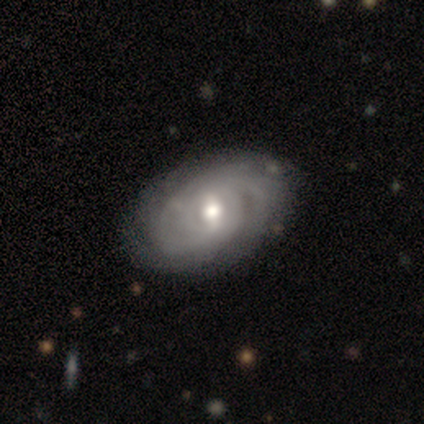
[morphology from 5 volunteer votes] smooth-or-featured: featured or disk: 100% | smooth: 0% | star or artifact: 0%
  disk-edge-on: no: 100% | yes: 0%
    bar: weak: 60% | strong: 20% | no: 20%
    has-spiral-arms: yes: 80% | no: 20%
      spiral-winding: tight: 100% | medium: 0% | loose: 0%
      spiral-arm-count: more than 4: 50% (tied) | can't tell: 50% (tied) | 1: 0% | 2: 0% | 3: 0% | 4: 0%
    bulge-size: small: 60% | moderate: 40% | dominant: 0% | large: 0% | none: 0%
  merging: none: 100% | minor disturbance: 0% | major disturbance: 0% | merger: 0%